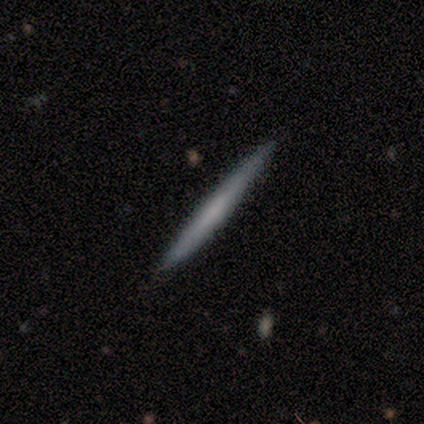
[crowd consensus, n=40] This is likely a smooth galaxy (62%). How rounded: clearly cigar-shaped (88%). Merging: clearly none (87%).